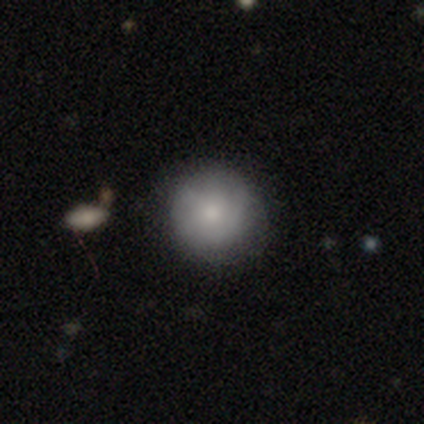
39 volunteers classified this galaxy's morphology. This appears to be a smooth galaxy with no disk features (62%) that is round (96%). Merging: none (86%).